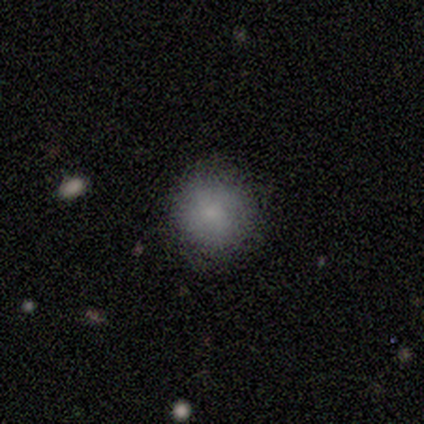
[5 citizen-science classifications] smooth 80%, star or artifact 20%, featured or disk 0%. Down the decision tree: how rounded — round (100%); merging — none (100%).